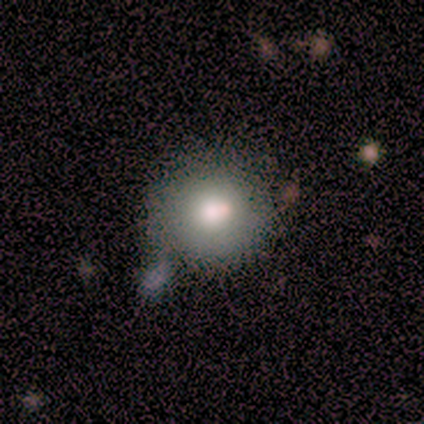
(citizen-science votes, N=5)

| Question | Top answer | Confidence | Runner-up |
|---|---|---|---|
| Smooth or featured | smooth | 60% | featured or disk (40%) |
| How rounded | round | 100% | — |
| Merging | none | 60% | merger (40%) |